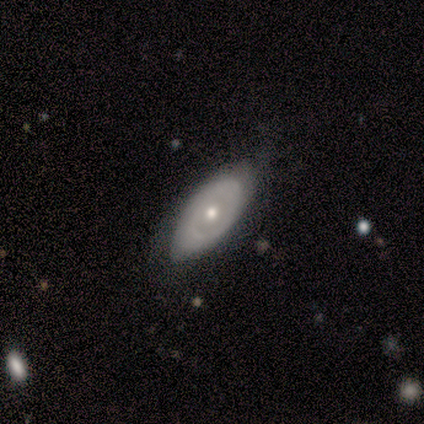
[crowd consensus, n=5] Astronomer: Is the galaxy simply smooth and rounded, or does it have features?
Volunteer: featured or disk — 80%.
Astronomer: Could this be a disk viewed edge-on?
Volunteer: no — 75%.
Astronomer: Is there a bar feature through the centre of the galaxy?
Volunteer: no — 100%.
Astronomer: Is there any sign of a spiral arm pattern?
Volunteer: no — 67%.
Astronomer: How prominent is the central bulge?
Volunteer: moderate — 67%.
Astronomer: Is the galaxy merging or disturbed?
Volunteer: none — 100%.